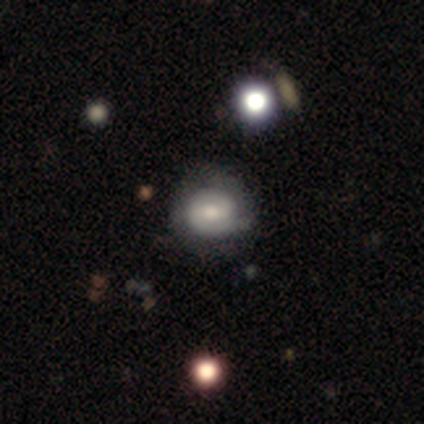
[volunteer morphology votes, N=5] Smooth or featured: smooth — 60% (featured or disk — 40%)
How rounded: in between — 67% (round — 33%)
Merging: minor disturbance — 60% (none — 40%)